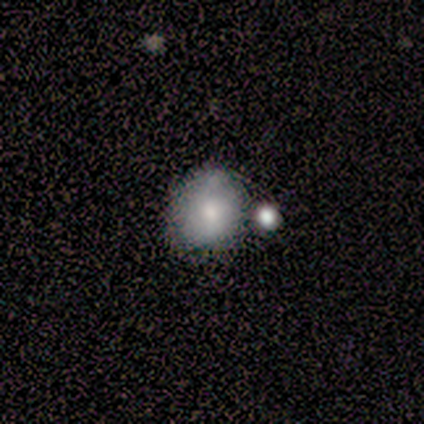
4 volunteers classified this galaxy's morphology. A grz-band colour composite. It shows a smooth galaxy with no disk features (75%) that is round (67%). Merging: none (50%, tied with merger).